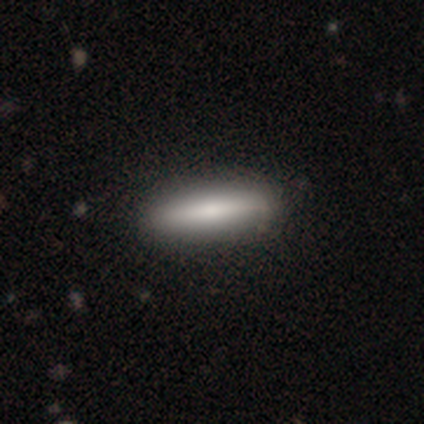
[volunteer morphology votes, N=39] This appears to be a smooth galaxy with no disk features (77%) that is cigar-shaped (80%). Merging: none (89%).